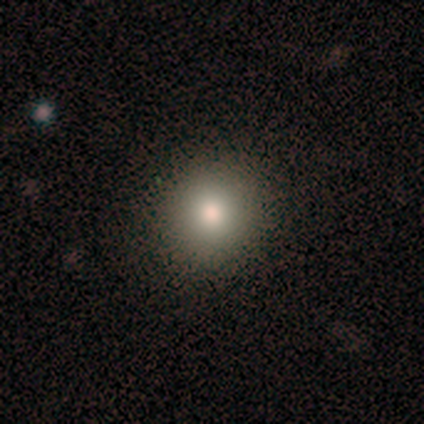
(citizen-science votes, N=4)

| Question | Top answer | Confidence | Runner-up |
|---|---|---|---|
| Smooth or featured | smooth | 75% | featured or disk (25%) |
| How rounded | round | 100% | — |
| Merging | none | 100% | — |